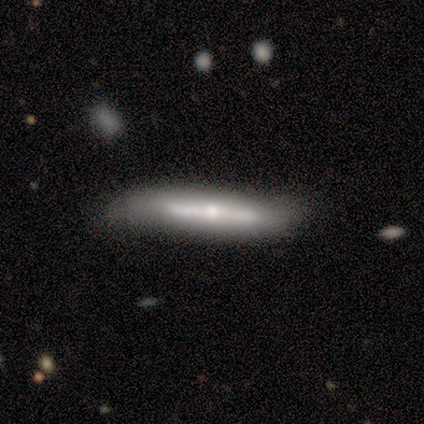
smooth-or-featured: featured or disk: 69% | smooth: 31% | star or artifact: 0%
  disk-edge-on: yes: 73% | no: 27%
    edge-on-bulge: rounded: 88% | none: 12% | boxy: 0%
  merging: none: 75% | minor disturbance: 25% | major disturbance: 0% | merger: 0%